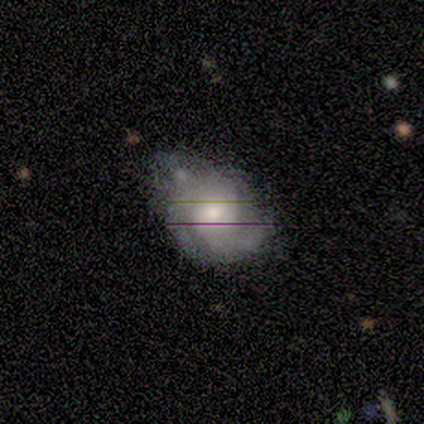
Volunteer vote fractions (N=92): featured or disk 72%, smooth 21%, star or artifact 8%. Down the decision tree: edge-on disk — no (100%); bar — no (76%); spiral arms — yes (88%); spiral arm count — 2 (48%); spiral winding — medium (47%); bulge size — moderate (59%); merging — minor disturbance (39%).